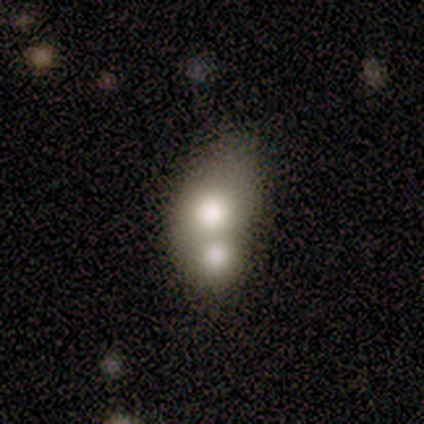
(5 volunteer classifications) This is likely a smooth galaxy (60%). How rounded: clearly in between (100%). Merging: clearly merger (80%).